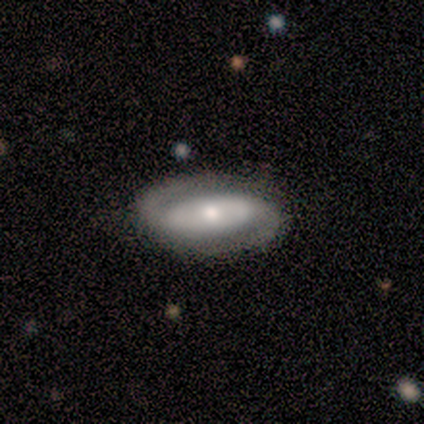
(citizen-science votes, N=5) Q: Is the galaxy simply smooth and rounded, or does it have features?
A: featured or disk — 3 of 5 (60%).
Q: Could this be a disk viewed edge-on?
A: no — 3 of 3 (100%).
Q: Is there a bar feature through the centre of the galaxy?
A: no — 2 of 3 (67%).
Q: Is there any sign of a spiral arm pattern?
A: yes — 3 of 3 (100%).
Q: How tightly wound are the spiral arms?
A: loose — 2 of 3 (67%).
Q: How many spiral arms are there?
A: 2 — 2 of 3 (67%).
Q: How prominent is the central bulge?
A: moderate — 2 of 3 (67%).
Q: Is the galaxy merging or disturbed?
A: none — 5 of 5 (100%).